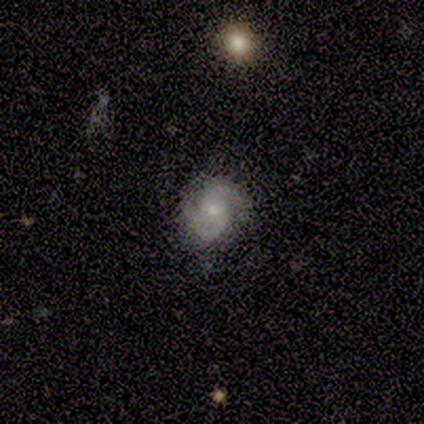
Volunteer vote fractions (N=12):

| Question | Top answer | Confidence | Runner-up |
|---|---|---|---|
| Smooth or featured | featured or disk | 83% | smooth (17%) |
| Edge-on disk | no | 100% | — |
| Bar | weak | 60% | no (40%) |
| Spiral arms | yes | 100% | — |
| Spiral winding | medium | 60% | loose (30%) |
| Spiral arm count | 2 | 70% | can't tell (30%) |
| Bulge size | small | 60% | moderate (40%) |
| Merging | none | 83% | minor disturbance (17%) |